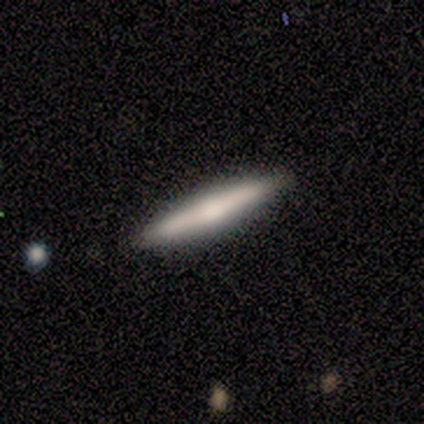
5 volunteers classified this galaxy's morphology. type=smooth (80%); roundness=cigar-shaped (100%); merging=none (100%).